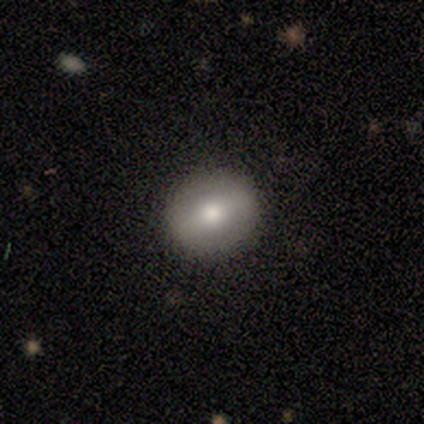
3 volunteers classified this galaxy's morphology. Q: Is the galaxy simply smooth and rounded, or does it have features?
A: smooth — 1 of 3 (33%, tied with featured or disk and star or artifact).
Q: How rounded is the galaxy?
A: round — 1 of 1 (100%).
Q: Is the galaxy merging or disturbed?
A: none — 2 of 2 (100%).